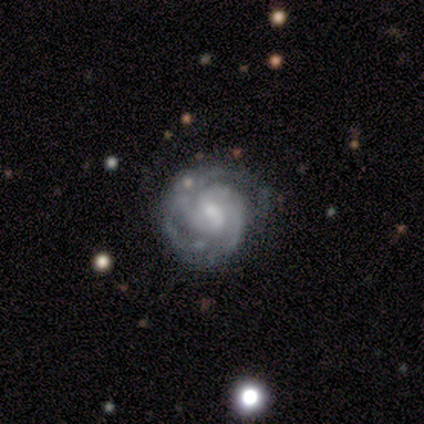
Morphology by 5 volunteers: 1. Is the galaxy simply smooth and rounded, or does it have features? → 80% featured or disk, 20% smooth, 0% star or artifact.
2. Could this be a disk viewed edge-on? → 100% no, 0% yes.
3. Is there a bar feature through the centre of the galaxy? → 50% weak, 25% strong, 25% no.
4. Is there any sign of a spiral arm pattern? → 100% yes, 0% no.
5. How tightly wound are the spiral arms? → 100% tight, 0% medium, 0% loose.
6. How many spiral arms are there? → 50% 2, 25% 3, 25% 4, 0% 1, 0% more than 4, 0% can't tell.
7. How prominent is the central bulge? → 50% moderate (tied), 50% small (tied), 0% dominant, 0% large, 0% none.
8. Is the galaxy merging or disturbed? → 60% none, 20% minor disturbance, 20% major disturbance, 0% merger.